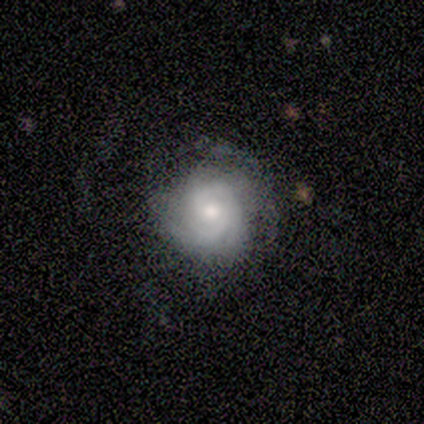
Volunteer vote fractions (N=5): Smooth or featured?
  - featured or disk: 100% *
  - smooth: 0%
  - star or artifact: 0%
Edge-on disk?
  - no: 100% *
  - yes: 0%
Bar?
  - no: 60% *
  - weak: 40%
  - strong: 0%
Spiral arms?
  - yes: 80% *
  - no: 20%
Spiral winding?
  - tight: 50% *
  - medium: 25%
  - loose: 25%
Spiral arm count?
  - 2: 50% *
  - 3: 25%
  - can't tell: 25%
  - 1: 0%
  - 4: 0%
  - more than 4: 0%
Bulge size?
  - moderate: 40% * (tied)
  - small: 40% * (tied)
  - large: 20%
  - dominant: 0%
  - none: 0%
Merging?
  - none: 100% *
  - minor disturbance: 0%
  - major disturbance: 0%
  - merger: 0%